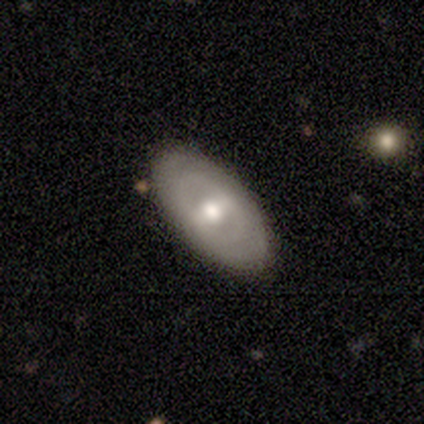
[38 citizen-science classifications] featured or disk 55%, smooth 37%, star or artifact 8%. Down the decision tree: edge-on disk — no (86%); bar — strong (33%, tied with weak and no); spiral arms — yes (50%, tied with no); spiral arm count — 2 (56%); spiral winding — tight (56%); bulge size — moderate (94%); merging — none (94%).